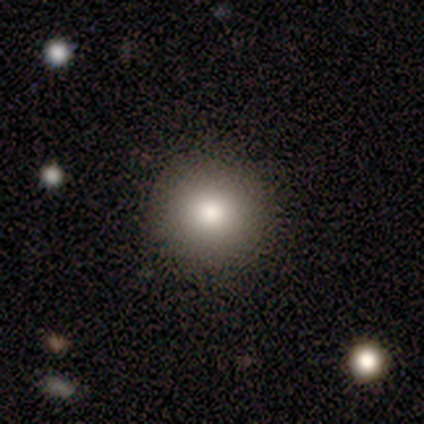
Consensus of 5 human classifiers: A smooth galaxy with no disk features (80%) that is round (100%).

Vote fractions:
- Smooth or featured? smooth: 80% / star or artifact: 20% / featured or disk: 0%
- How rounded? round: 100% / in between: 0% / cigar-shaped: 0%
- Merging? none: 100% / minor disturbance: 0% / major disturbance: 0% / merger: 0%